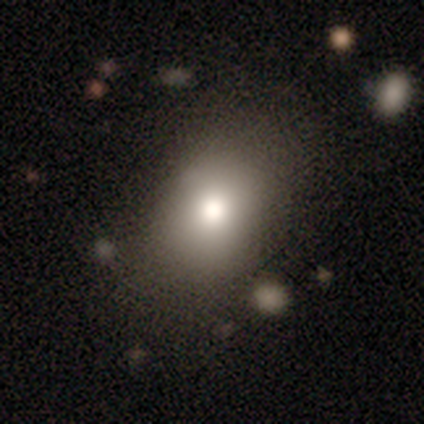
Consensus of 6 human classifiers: Overall: smooth (67%). How rounded: round (50%, tied with in between). Merging: none (100%).